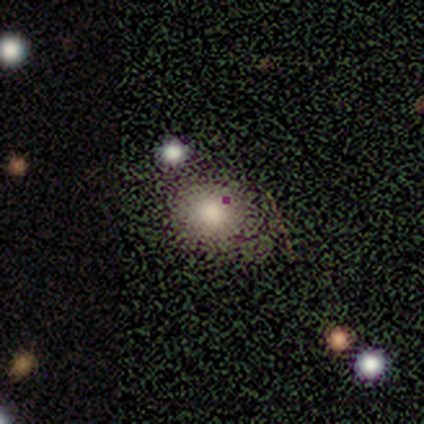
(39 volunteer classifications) A smooth galaxy with no disk features (69%) that is round (67%). Merging: none (58%).